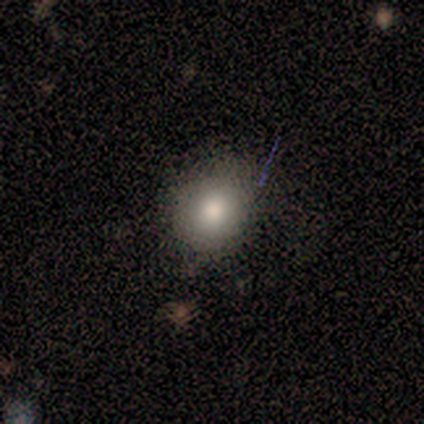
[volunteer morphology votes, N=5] type=smooth (60%); roundness=round (67%); merging=none (100%).